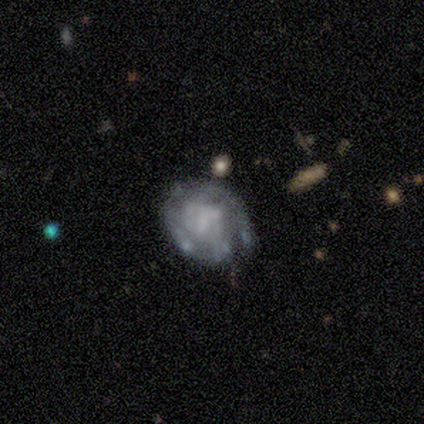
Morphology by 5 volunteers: smooth_or_featured: featured or disk (p=1.00)
disk_edge_on: no (p=1.00)
bar: no (p=0.60) [alt: weak p=0.40]
has_spiral_arms: yes (p=0.80) [alt: no p=0.20]
spiral_winding: tight (p=0.75) [alt: medium p=0.25]
spiral_arm_count: 1 (p=0.25) [tied with: 2 p=0.25, 4 p=0.25, can't tell p=0.25]
bulge_size: small (p=0.40) [tied with: none p=0.40]
merging: minor disturbance (p=0.40) [tied with: major disturbance p=0.40]